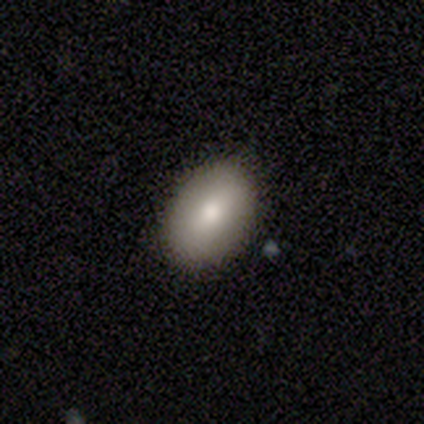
Volunteers were most divided on "smooth or featured": smooth: 75%, star or artifact: 25%, featured or disk: 0%. More confident: how rounded — in between (100%); merging — none (100%).